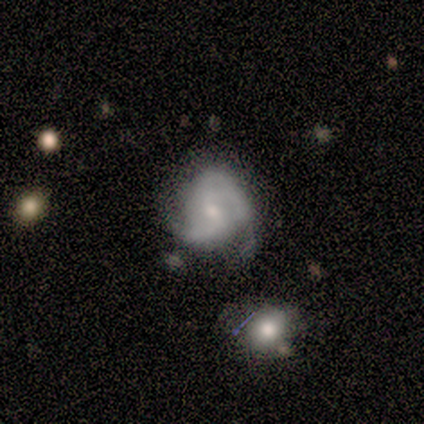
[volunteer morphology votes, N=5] Overall: featured or disk (60%; smooth 40%). Edge-on disk: no (100%). Bar: weak (67%; no 33%). Spiral arms: yes (100%). Spiral arm count: 3 (67%; 2 33%). Spiral winding: medium (100%). Bulge size: moderate (33%, tied with small and none). Merging: none (80%).